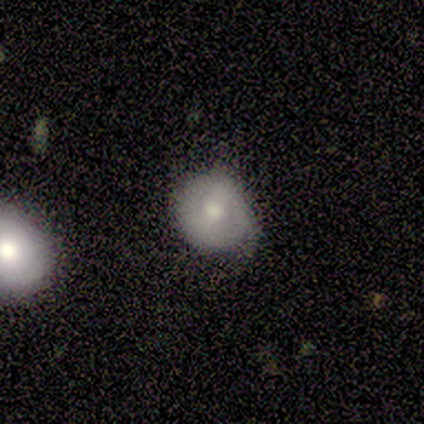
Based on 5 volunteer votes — Morphology: type=featured or disk (60%); edge-on=no (100%); bar=strong (33%, tied with weak and no); spiral arms=no (67%); bulge=moderate (67%); merging=none (80%).